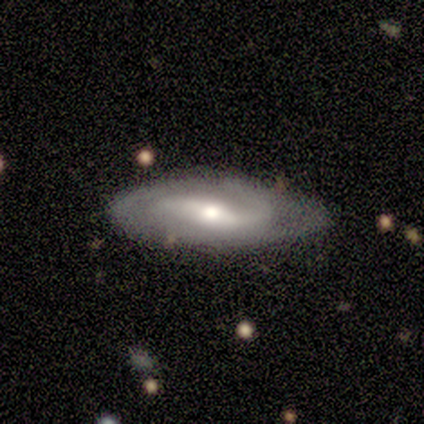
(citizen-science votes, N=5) A featured or disk galaxy (80%) with no bar (50%), 2 (100%) medium (67%) spiral arms (75%) and a moderate central bulge (50%). Merging: none (60%).